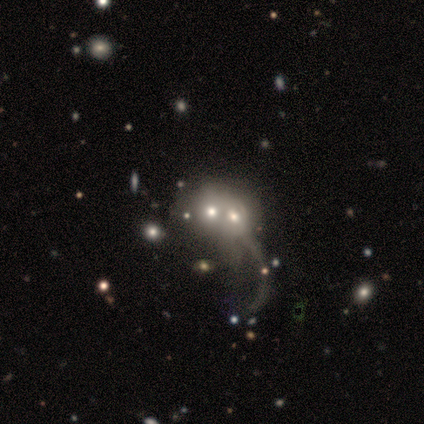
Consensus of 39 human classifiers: This appears to be a smooth galaxy with no disk features (44%, tied with featured or disk) that is round (71%). Merging: merger (79%).